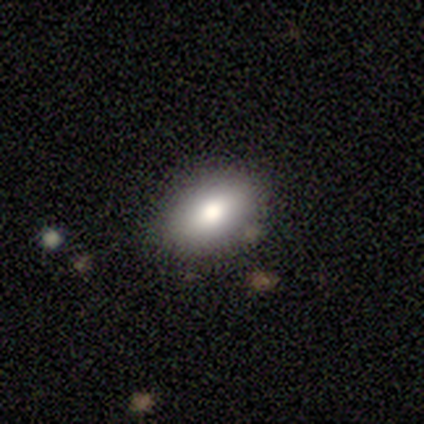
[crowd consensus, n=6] Smooth or featured?
  - smooth: 100% *
  - featured or disk: 0%
  - star or artifact: 0%
How rounded?
  - in between: 100% *
  - round: 0%
  - cigar-shaped: 0%
Merging?
  - none: 83% *
  - minor disturbance: 17%
  - major disturbance: 0%
  - merger: 0%